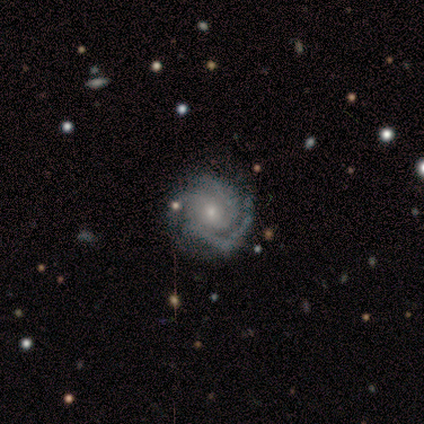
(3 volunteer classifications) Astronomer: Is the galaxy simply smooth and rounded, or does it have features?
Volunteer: featured or disk — 100%.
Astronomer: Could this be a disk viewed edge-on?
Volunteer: no — 100%.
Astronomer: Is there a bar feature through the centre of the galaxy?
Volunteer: no — 67%.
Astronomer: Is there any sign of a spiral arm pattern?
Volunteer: yes — 100%.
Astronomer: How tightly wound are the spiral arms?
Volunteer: tight — 67%.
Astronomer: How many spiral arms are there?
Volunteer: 3 — 100%.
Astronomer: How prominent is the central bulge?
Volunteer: small — 67%.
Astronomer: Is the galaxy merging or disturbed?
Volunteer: none — 67%.